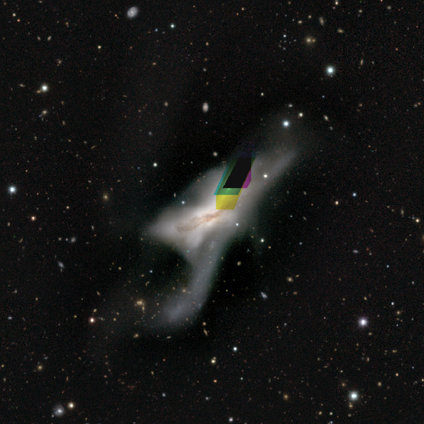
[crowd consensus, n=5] A featured or disk galaxy (60%) with no bar (100%), no spiral arms (100%) and a moderate central bulge (67%).

Vote fractions:
- Smooth or featured? featured or disk: 60% / star or artifact: 40% / smooth: 0%
- Edge-on disk? no: 100% / yes: 0%
- Bar? no: 100% / strong: 0% / weak: 0%
- Spiral arms? no: 100% / yes: 0%
- Bulge size? moderate: 67% / none: 33% / dominant: 0% / large: 0% / small: 0%
- Merging? major disturbance: 67% / merger: 33% / none: 0% / minor disturbance: 0%